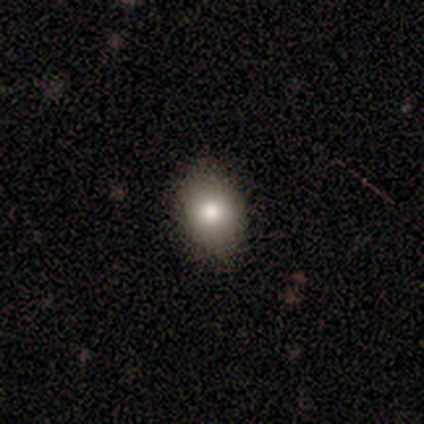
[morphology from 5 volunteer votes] smooth_or_featured: smooth (p=0.80) [alt: featured or disk p=0.20]
how_rounded: round (p=0.50) [tied with: in between p=0.50]
merging: none (p=0.80) [alt: minor disturbance p=0.20]